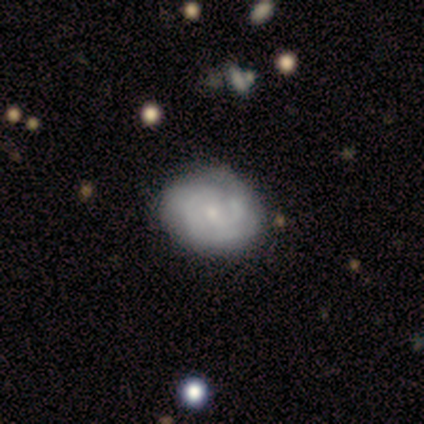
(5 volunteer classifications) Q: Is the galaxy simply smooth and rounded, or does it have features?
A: featured or disk — 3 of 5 (60%).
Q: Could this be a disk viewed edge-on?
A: no — 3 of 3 (100%).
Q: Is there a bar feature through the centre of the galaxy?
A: weak — 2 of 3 (67%).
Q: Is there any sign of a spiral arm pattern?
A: yes — 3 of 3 (100%).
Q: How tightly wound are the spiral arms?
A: tight — 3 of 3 (100%).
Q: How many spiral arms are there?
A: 2 — 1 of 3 (33%, tied with 3 and can't tell).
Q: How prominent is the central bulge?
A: small — 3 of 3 (100%).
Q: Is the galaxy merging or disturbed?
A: none — 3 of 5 (60%).